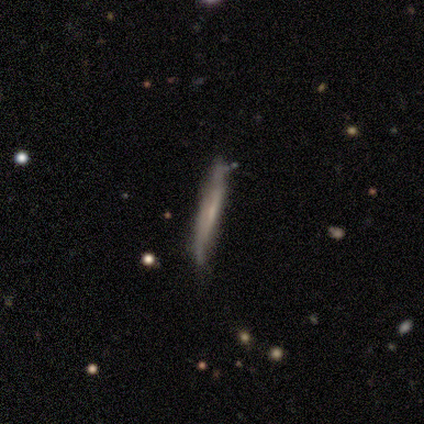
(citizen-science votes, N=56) Smooth or featured?
  - smooth: 48% * (tied)
  - featured or disk: 48% * (tied)
  - star or artifact: 4%
How rounded?
  - cigar-shaped: 93% *
  - in between: 7%
  - round: 0%
Merging?
  - none: 65% *
  - minor disturbance: 35%
  - major disturbance: 0%
  - merger: 0%